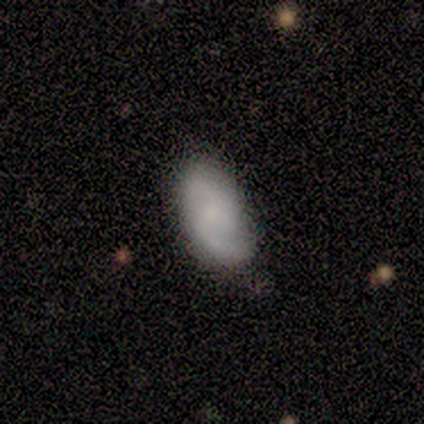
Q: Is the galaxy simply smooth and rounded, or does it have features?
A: smooth — 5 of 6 (83%).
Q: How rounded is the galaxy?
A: in between — 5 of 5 (100%).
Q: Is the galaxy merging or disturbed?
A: none — 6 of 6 (100%).